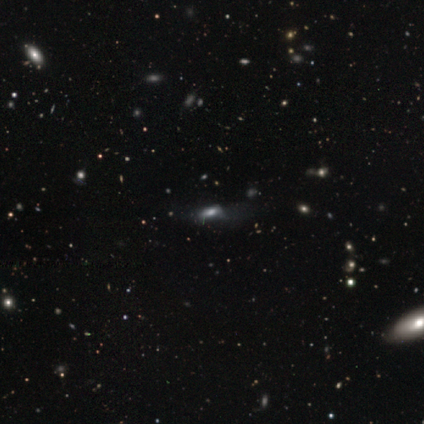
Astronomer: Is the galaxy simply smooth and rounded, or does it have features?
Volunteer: smooth — 40%, tied with featured or disk at 40%.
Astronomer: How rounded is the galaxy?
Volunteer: cigar-shaped — 100%.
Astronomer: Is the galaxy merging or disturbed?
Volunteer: none — 50%.